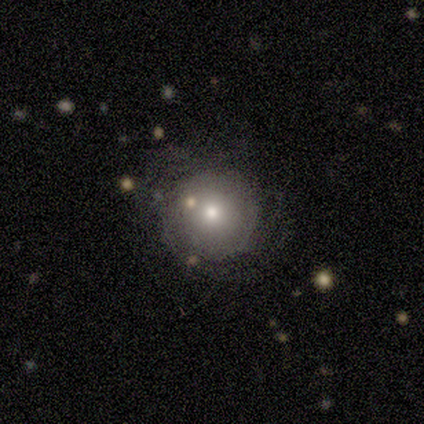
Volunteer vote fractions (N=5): Smooth or featured: featured or disk — 60% (smooth — 40%)
Edge-on disk: no — 100%
Bar: no — 67% (weak — 33%)
Spiral arms: no — 67% (yes — 33%)
Bulge size: moderate — 67% (small — 33%)
Merging: none — 80% (minor disturbance — 20%)